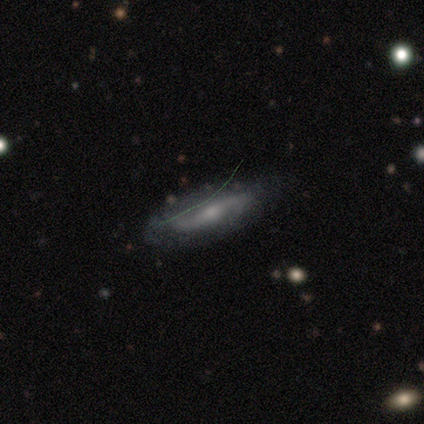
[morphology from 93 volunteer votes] A featured or disk galaxy (74%) with no bar (46%), 2 (91%) loose (65%) spiral arms (93%) and a small central bulge (63%). Merging: none (78%).